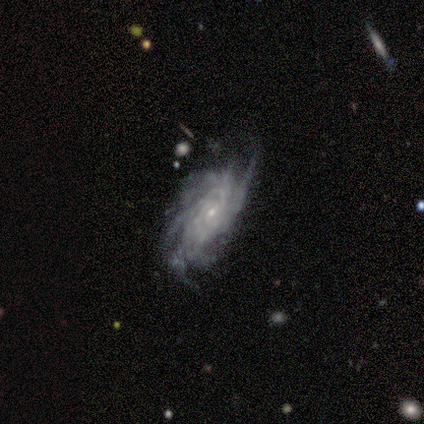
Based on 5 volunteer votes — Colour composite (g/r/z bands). It shows a featured or disk galaxy (100%) with no bar (60%), more than 4 (60%) tight (60%) spiral arms (100%) and a small central bulge (100%). Merging: none (80%).